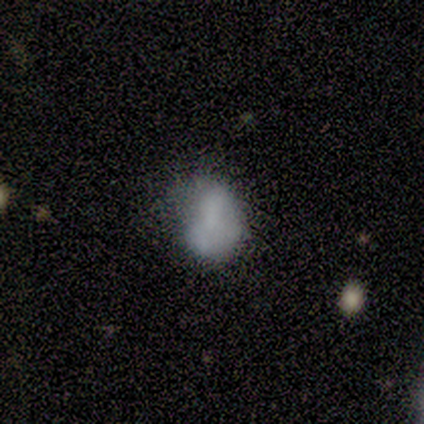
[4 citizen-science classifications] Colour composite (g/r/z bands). It shows a smooth galaxy with no disk features (75%) that is in between round and cigar-shaped (100%). Merging: none (33%, tied with minor disturbance and major disturbance).